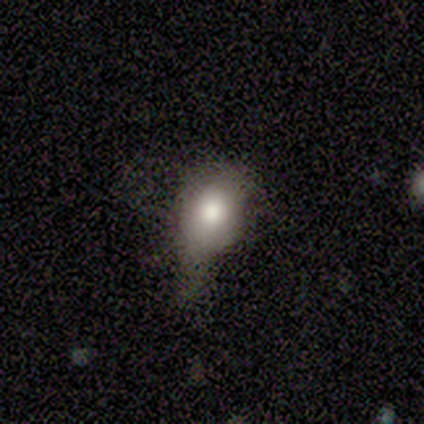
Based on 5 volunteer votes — This is marginally a smooth galaxy (40%, tied with star or artifact). How rounded: possibly round (50%, tied with in between). Merging: likely major disturbance (67%).